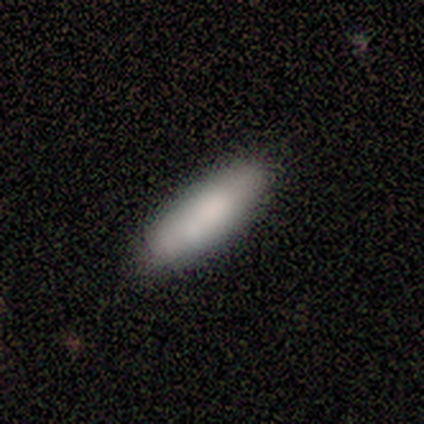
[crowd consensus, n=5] Volunteers were most divided on "how rounded": in between: 80%, cigar-shaped: 20%, round: 0%. More confident: smooth or featured — smooth (100%); merging — none (80%).